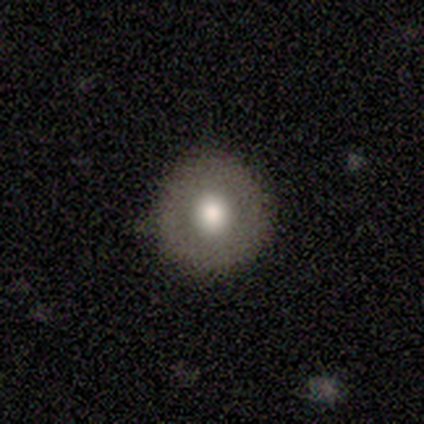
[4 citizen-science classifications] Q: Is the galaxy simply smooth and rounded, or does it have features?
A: smooth — 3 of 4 (75%).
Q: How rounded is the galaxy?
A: round — 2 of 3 (67%).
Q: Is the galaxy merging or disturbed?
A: none — 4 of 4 (100%).